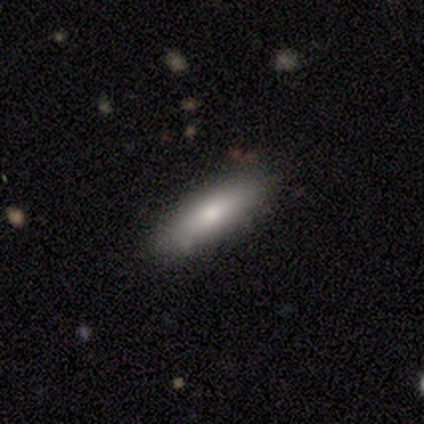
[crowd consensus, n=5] smooth 60%, featured or disk 20%, star or artifact 20%. Down the decision tree: how rounded — in between (67%); merging — none (75%).